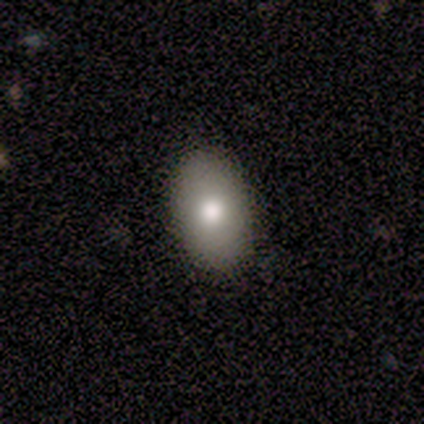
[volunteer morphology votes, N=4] Smooth or featured?
  - smooth: 50% * (tied)
  - featured or disk: 50% * (tied)
  - star or artifact: 0%
How rounded?
  - in between: 100% *
  - round: 0%
  - cigar-shaped: 0%
Merging?
  - none: 100% *
  - minor disturbance: 0%
  - major disturbance: 0%
  - merger: 0%